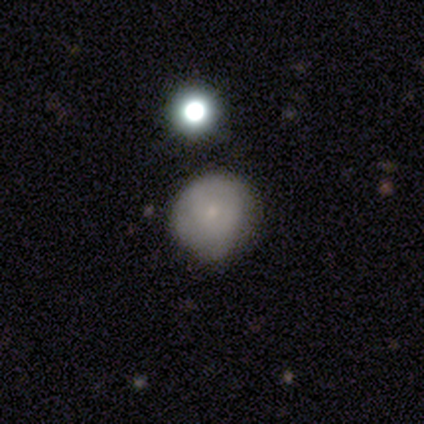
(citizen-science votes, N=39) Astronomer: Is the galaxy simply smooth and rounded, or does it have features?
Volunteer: smooth — 54% (runner-up: featured or disk, 33%).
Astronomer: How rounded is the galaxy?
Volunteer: round — 81%.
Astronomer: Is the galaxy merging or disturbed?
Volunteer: none — 35% (runner-up: minor disturbance, 26%).